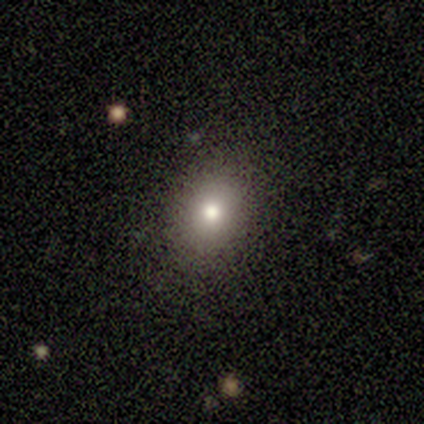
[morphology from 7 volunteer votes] smooth 57%, featured or disk 29%, star or artifact 14%. Down the decision tree: how rounded — round (50%, tied with in between); merging — none (100%).